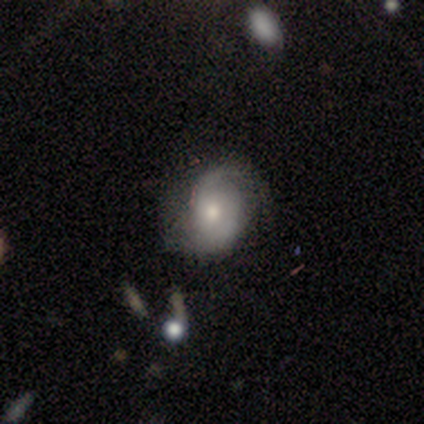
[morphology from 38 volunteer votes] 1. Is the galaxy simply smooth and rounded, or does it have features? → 68% featured or disk, 29% smooth, 3% star or artifact.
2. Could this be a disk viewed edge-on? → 100% no, 0% yes.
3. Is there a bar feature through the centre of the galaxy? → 65% no, 31% weak, 4% strong.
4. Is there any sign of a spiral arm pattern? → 88% yes, 12% no.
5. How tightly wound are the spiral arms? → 57% medium, 22% tight, 22% loose.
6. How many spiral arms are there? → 74% 2, 17% 1, 9% can't tell, 0% 3, 0% 4, 0% more than 4.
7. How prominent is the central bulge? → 65% moderate, 35% small, 0% dominant, 0% large, 0% none.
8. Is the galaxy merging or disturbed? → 59% none, 27% minor disturbance, 14% major disturbance, 0% merger.